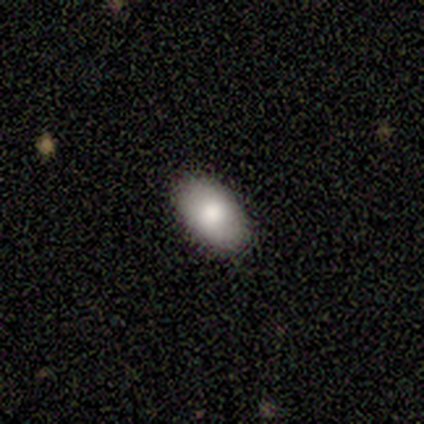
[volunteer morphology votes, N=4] This is possibly a featured or disk galaxy (50%). It is clearly not viewed edge-on (100%). Bar: clearly no (100%). Spiral arm pattern: clearly no (100%). Central bulge: possibly large (50%, tied with moderate). Merging: clearly none (100%).